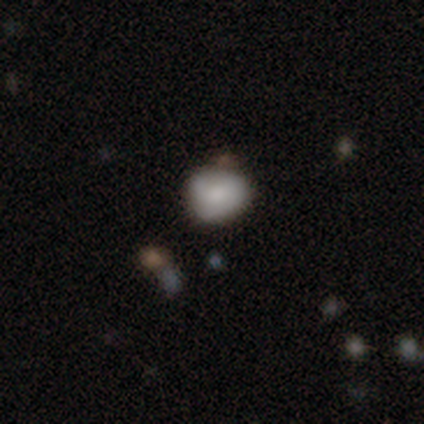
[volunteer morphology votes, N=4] A smooth galaxy with no disk features (75%) that is in between round and cigar-shaped (67%). Merging: none (67%).